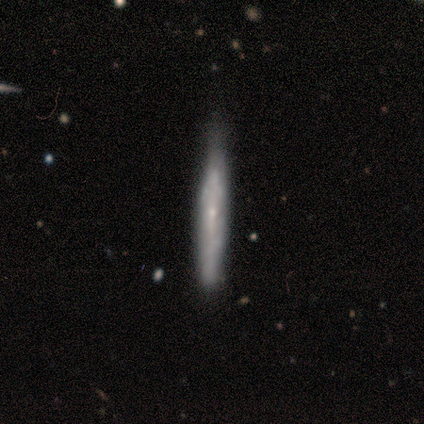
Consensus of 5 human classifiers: This appears to be a smooth galaxy with no disk features (100%) that is cigar-shaped (100%). Merging: none (60%).